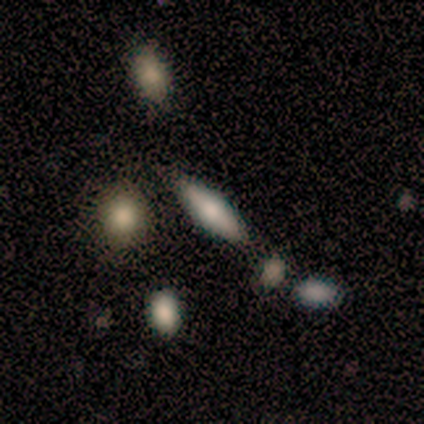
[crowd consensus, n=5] Smooth or featured: smooth — 60% (featured or disk — 40%)
How rounded: in between — 67% (cigar-shaped — 33%)
Merging: none — 100%